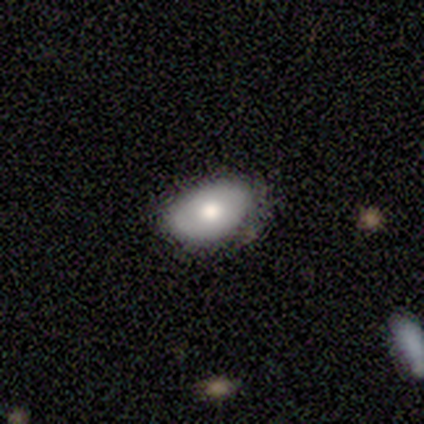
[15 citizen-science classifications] Smooth or featured? 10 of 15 (67%) said smooth. How rounded? 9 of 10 (90%) said in between. Merging? 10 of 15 (67%) said none.